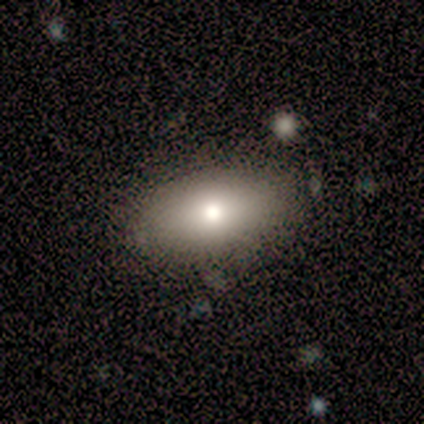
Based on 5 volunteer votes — Q: Smooth or featured?
A: smooth (100%)
Q: How rounded?
A: in between (100%)
Q: Merging?
A: none (80%); runner-up: minor disturbance (20%)